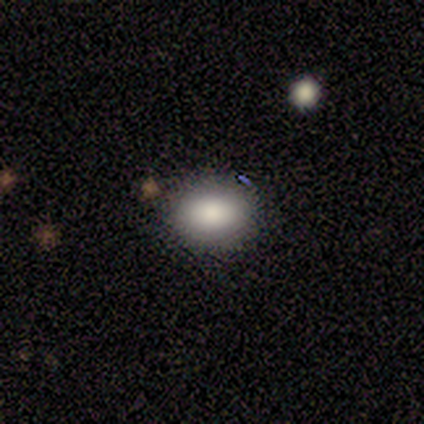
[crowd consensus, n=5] smooth_or_featured: smooth (p=0.80) [alt: featured or disk p=0.20]
how_rounded: in between (p=0.75) [alt: round p=0.25]
merging: none (p=1.00)